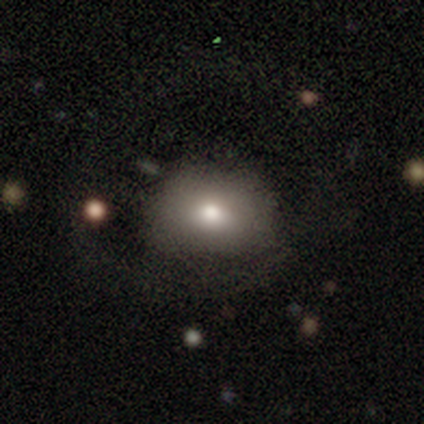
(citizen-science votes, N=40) Smooth or featured?
  - smooth: 80% *
  - featured or disk: 15%
  - star or artifact: 5%
How rounded?
  - in between: 78% *
  - round: 22%
  - cigar-shaped: 0%
Merging?
  - none: 63% *
  - minor disturbance: 18%
  - major disturbance: 16%
  - merger: 3%